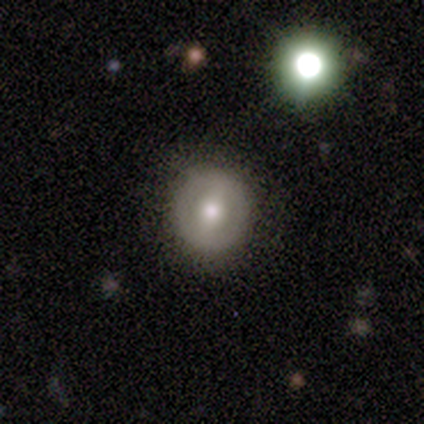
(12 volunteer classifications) Smooth or featured: featured or disk — 83% (smooth — 17%)
Edge-on disk: no — 100%
Bar: weak — 50% (strong — 40%)
Spiral arms: no — 90% (yes — 10%)
Bulge size: moderate — 80% (large — 10%)
Merging: none — 100%